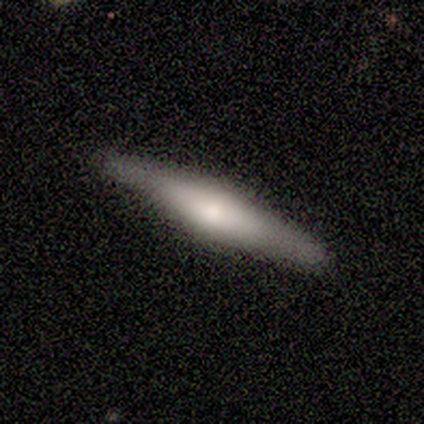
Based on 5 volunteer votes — Morphology: type=featured or disk (60%); edge-on=yes (100%); edge-on bulge=rounded (100%); merging=none (75%).